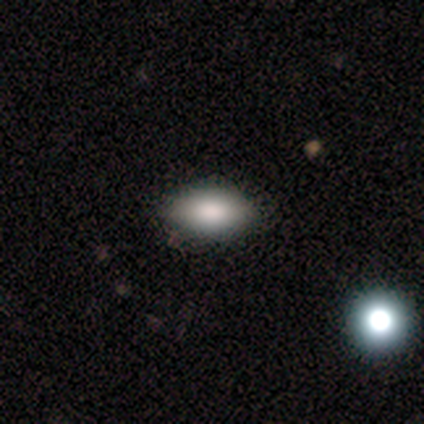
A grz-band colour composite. It shows a smooth galaxy with no disk features (83%) that is in between round and cigar-shaped (100%). Merging: none (80%).